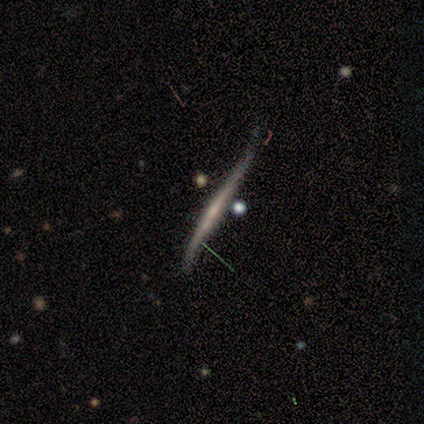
Volunteers were most divided on "edge-on disk": yes: 75%, no: 25%. More confident: edge-on bulge — none (100%); smooth or featured — featured or disk (80%); merging — minor disturbance (80%).